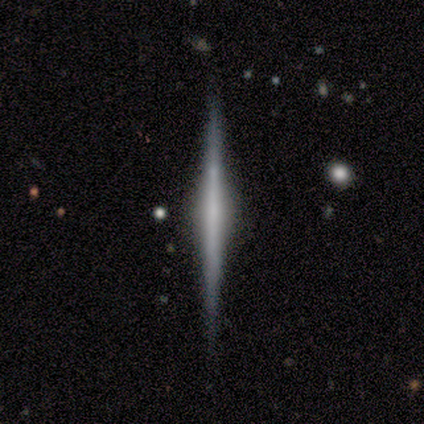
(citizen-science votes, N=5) smooth_or_featured: featured or disk (p=1.00)
disk_edge_on: yes (p=1.00)
edge_on_bulge: none (p=0.60) [alt: rounded p=0.40]
merging: none (p=1.00)